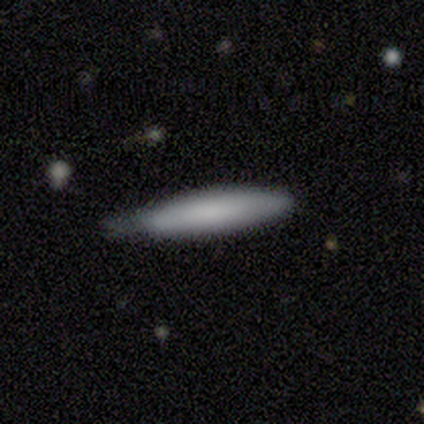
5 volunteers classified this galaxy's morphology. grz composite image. It shows a featured or disk galaxy (80%) viewed edge-on (100%) with a rounded central bulge (50%). Merging: minor disturbance (60%).